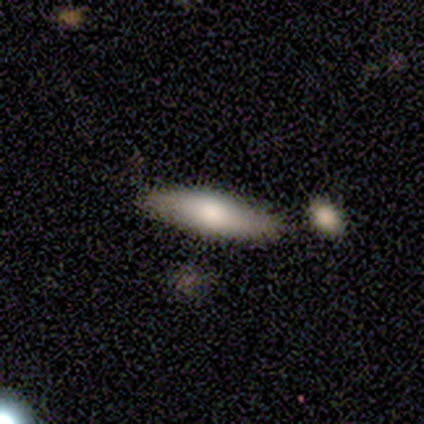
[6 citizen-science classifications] This is likely a smooth galaxy (67%). How rounded: clearly cigar-shaped (100%). Merging: clearly none (100%).